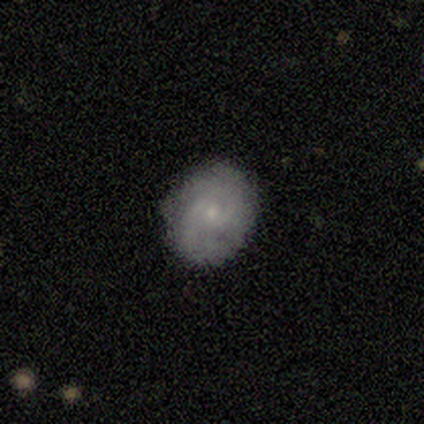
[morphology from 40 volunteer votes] Q: Smooth or featured?
A: featured or disk (55%); runner-up: smooth (40%)
Q: Edge-on disk?
A: no (95%); runner-up: yes (5%)
Q: Bar?
A: no (52%); runner-up: weak (43%)
Q: Spiral arms?
A: yes (100%)
Q: Spiral winding?
A: tight (57%); runner-up: medium (33%)
Q: Spiral arm count?
A: 2 (52%); runner-up: can't tell (33%)
Q: Bulge size?
A: small (76%); runner-up: moderate (24%)
Q: Merging?
A: none (87%); runner-up: minor disturbance (13%)